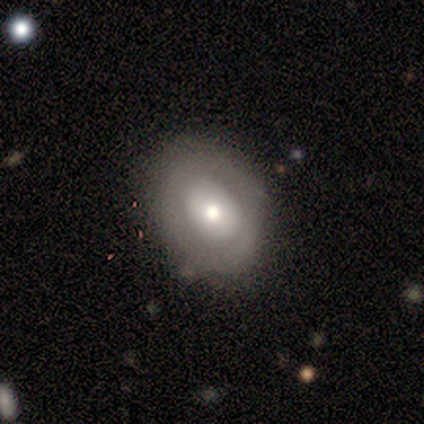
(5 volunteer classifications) This is marginally a smooth galaxy (40%, tied with featured or disk). How rounded: clearly in between (100%). Merging: possibly none (50%, tied with minor disturbance).